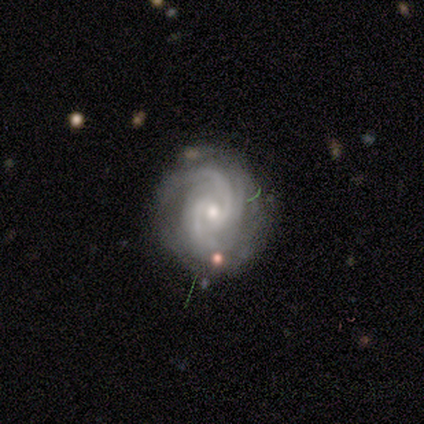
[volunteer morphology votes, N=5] A featured or disk galaxy (100%) with no bar (60%), 3 (60%) tight (60%) spiral arms (100%) and a small central bulge (60%).

Vote fractions:
- Smooth or featured? featured or disk: 100% / smooth: 0% / star or artifact: 0%
- Edge-on disk? no: 100% / yes: 0%
- Bar? no: 60% / weak: 40% / strong: 0%
- Spiral arms? yes: 100% / no: 0%
- Spiral winding? tight: 60% / medium: 40% / loose: 0%
- Spiral arm count? 3: 60% / can't tell: 40% / 1: 0% / 2: 0% / 4: 0% / more than 4: 0%
- Bulge size? small: 60% / moderate: 40% / dominant: 0% / large: 0% / none: 0%
- Merging? none: 100% / minor disturbance: 0% / major disturbance: 0% / merger: 0%